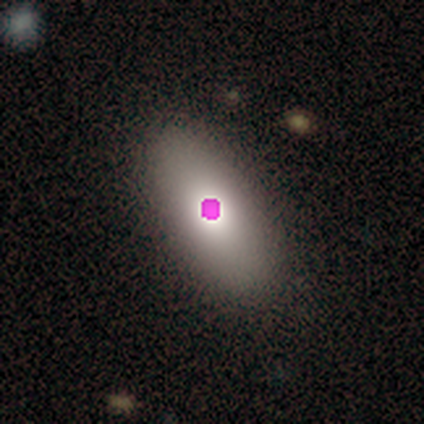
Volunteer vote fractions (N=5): Q: Smooth or featured?
A: smooth (60%); runner-up: star or artifact (40%)
Q: How rounded?
A: in between (67%); runner-up: cigar-shaped (33%)
Q: Merging?
A: none (67%); runner-up: minor disturbance (33%)